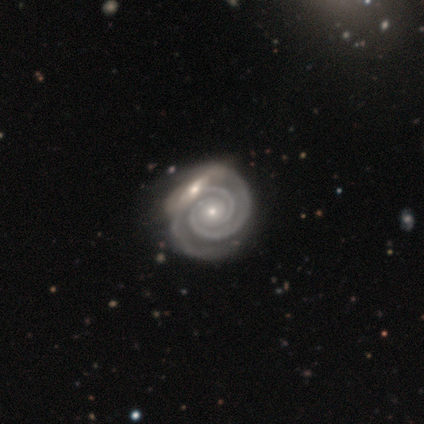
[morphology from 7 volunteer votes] smooth_or_featured: featured or disk (p=0.71) [alt: smooth p=0.14]
disk_edge_on: no (p=1.00)
bar: no (p=0.80) [alt: strong p=0.20]
has_spiral_arms: yes (p=1.00)
spiral_winding: tight (p=1.00)
spiral_arm_count: 2 (p=0.60) [alt: 1 p=0.20]
bulge_size: small (p=0.60) [alt: moderate p=0.20]
merging: none (p=0.50) [tied with: merger p=0.50]